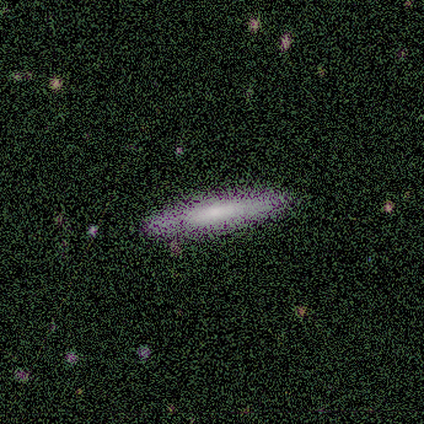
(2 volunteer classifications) Smooth or featured? 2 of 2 (100%) said featured or disk. Edge-on disk? 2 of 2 (100%) said yes. Edge-on bulge? 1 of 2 (50%, tied with rounded) said none. Merging? 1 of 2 (50%, tied with minor disturbance) said none.